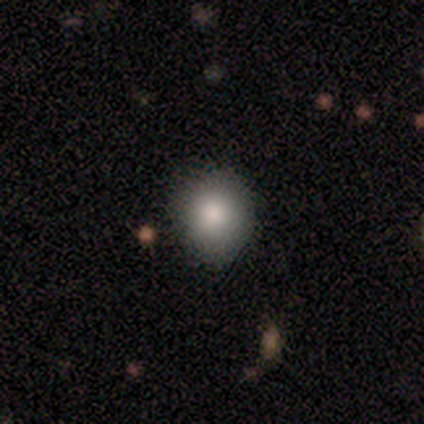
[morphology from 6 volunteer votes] Smooth or featured?
  - smooth: 100% *
  - featured or disk: 0%
  - star or artifact: 0%
How rounded?
  - round: 67% *
  - in between: 33%
  - cigar-shaped: 0%
Merging?
  - none: 100% *
  - minor disturbance: 0%
  - major disturbance: 0%
  - merger: 0%